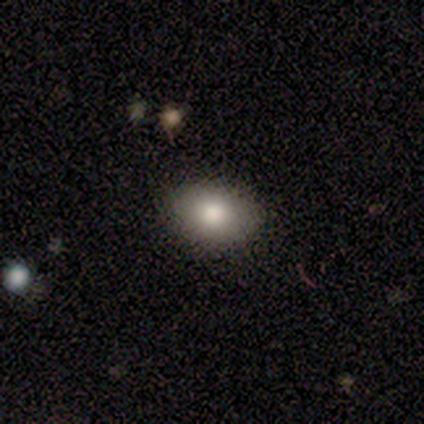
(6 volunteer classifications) Volunteers were most divided on "smooth or featured": smooth: 67%, featured or disk: 17%, star or artifact: 17%. More confident: how rounded — in between (100%); merging — none (80%).